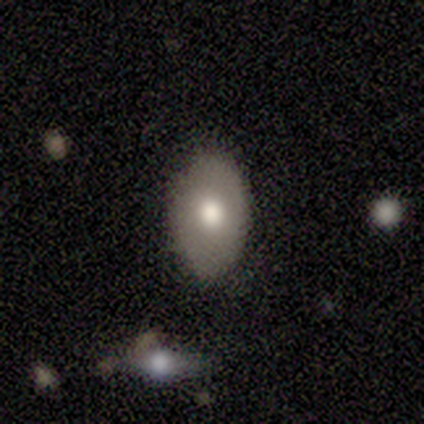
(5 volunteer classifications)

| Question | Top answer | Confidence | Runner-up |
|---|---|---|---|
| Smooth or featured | smooth | 80% | featured or disk (20%) |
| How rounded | in between | 75% | round (25%) |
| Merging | none | 100% | — |